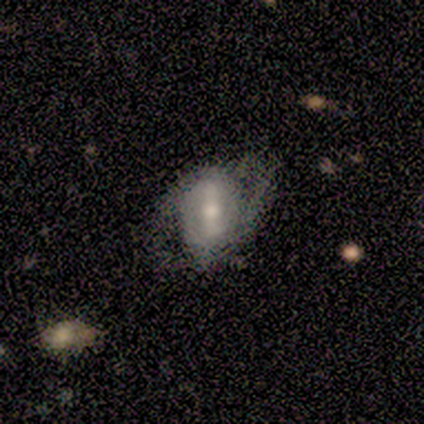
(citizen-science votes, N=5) This is clearly a featured or disk galaxy (80%). It is likely not viewed edge-on (75%). Bar: likely strong (67%). Spiral arm pattern: clearly yes (100%). Spiral arm count: clearly 2 (100%). Spiral winding: likely tight (67%). Central bulge: clearly moderate (100%). Merging: likely none (60%).